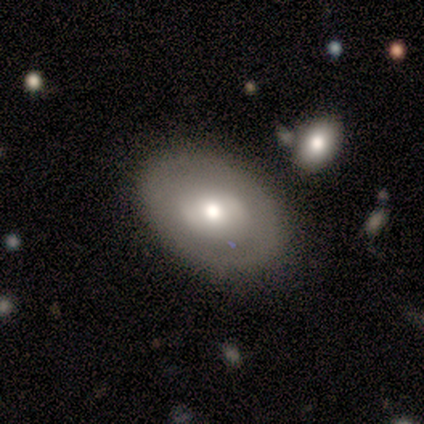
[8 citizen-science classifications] Smooth or featured?
  - featured or disk: 62% *
  - smooth: 38%
  - star or artifact: 0%
Edge-on disk?
  - no: 100% *
  - yes: 0%
Bar?
  - no: 60% *
  - weak: 40%
  - strong: 0%
Spiral arms?
  - no: 80% *
  - yes: 20%
Bulge size?
  - moderate: 60% *
  - dominant: 20%
  - large: 20%
  - small: 0%
  - none: 0%
Merging?
  - none: 100% *
  - minor disturbance: 0%
  - major disturbance: 0%
  - merger: 0%